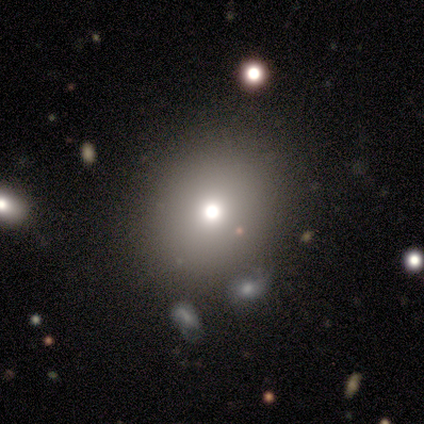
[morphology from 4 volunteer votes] This is clearly a smooth galaxy (100%). How rounded: clearly round (100%). Merging: marginally none (25%, tied with minor disturbance, major disturbance and merger).